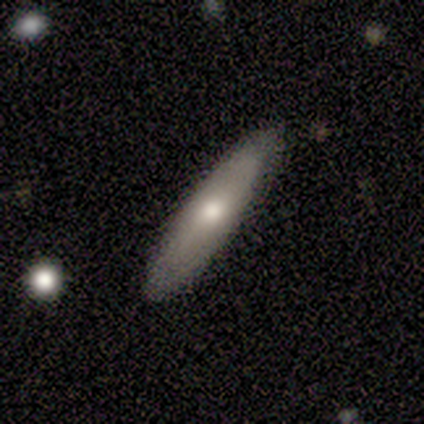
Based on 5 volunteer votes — Smooth or featured?
  - smooth: 60% *
  - featured or disk: 40%
  - star or artifact: 0%
How rounded?
  - cigar-shaped: 100% *
  - round: 0%
  - in between: 0%
Merging?
  - none: 80% *
  - minor disturbance: 20%
  - major disturbance: 0%
  - merger: 0%